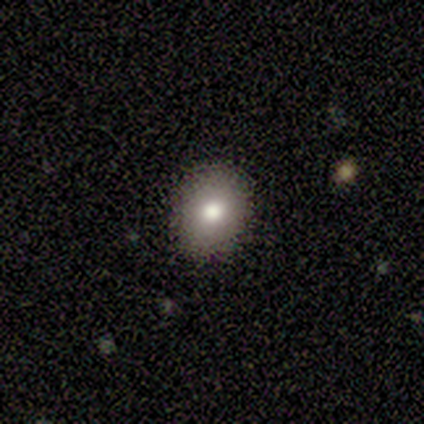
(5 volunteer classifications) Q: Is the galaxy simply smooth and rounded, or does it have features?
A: smooth — 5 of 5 (100%).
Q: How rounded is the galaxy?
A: round — 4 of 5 (80%).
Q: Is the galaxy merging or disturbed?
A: none — 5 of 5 (100%).